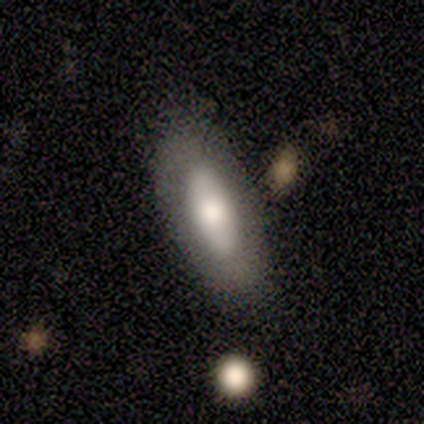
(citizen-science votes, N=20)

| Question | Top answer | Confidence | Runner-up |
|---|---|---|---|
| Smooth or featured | smooth | 50% | tied: featured or disk (50%) |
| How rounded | cigar-shaped | 60% | in between (40%) |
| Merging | none | 80% | major disturbance (15%) |